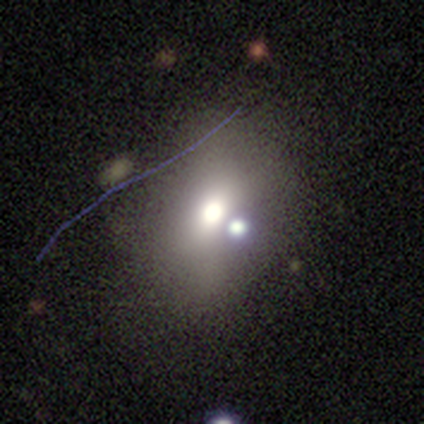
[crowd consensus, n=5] smooth_or_featured: featured or disk (p=0.60) [alt: smooth p=0.20]
disk_edge_on: no (p=1.00)
bar: no (p=1.00)
has_spiral_arms: no (p=1.00)
bulge_size: moderate (p=0.67) [alt: dominant p=0.33]
merging: none (p=0.75) [alt: merger p=0.25]